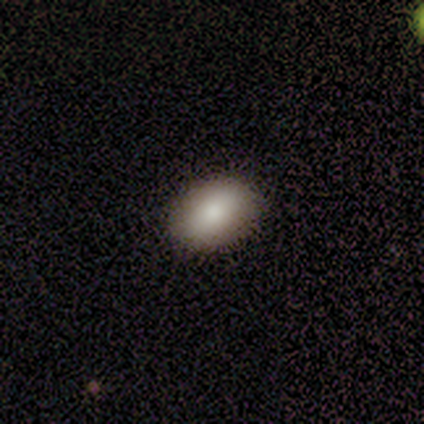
Smooth or featured: smooth — 100%
How rounded: in between — 100%
Merging: none — 100%